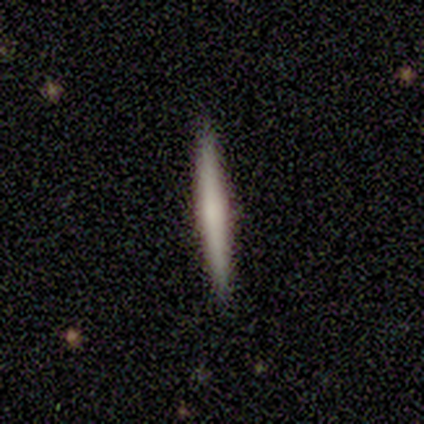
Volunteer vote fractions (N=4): A smooth galaxy with no disk features (50%, tied with featured or disk) that is cigar-shaped (100%).

Vote fractions:
- Smooth or featured? smooth: 50% (tied) / featured or disk: 50% (tied) / star or artifact: 0%
- How rounded? cigar-shaped: 100% / round: 0% / in between: 0%
- Merging? none: 100% / minor disturbance: 0% / major disturbance: 0% / merger: 0%